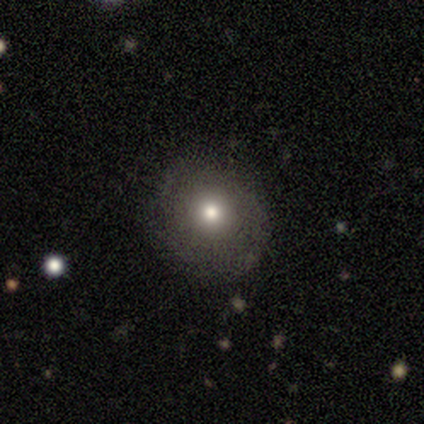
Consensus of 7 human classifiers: Volunteers were most divided on "smooth or featured": smooth: 71%, featured or disk: 29%, star or artifact: 0%. More confident: merging — none (86%); how rounded — round (80%).